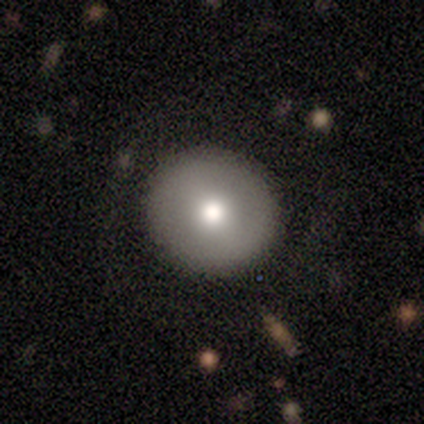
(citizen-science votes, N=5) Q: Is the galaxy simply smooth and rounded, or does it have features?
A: smooth — 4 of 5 (80%).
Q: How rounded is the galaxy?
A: round — 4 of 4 (100%).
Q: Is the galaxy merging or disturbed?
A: none — 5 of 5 (100%).